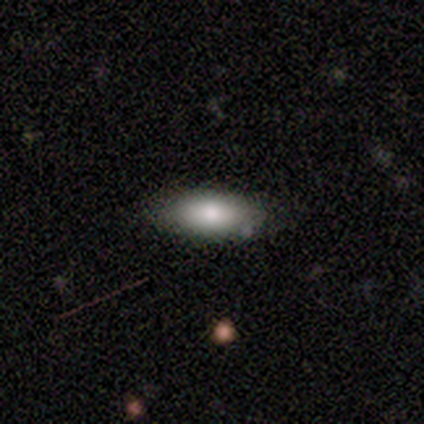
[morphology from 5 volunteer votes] Smooth or featured? 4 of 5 (80%) said smooth. How rounded? 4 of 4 (100%) said in between. Merging? 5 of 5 (100%) said none.